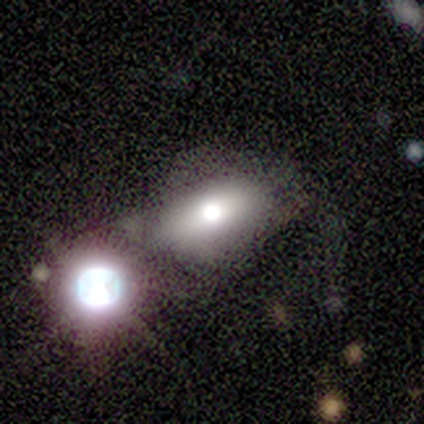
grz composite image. It shows a featured or disk galaxy (40%, tied with star or artifact) with no bar (100%), no spiral arms (100%) and a moderate central bulge (100%). Merging: none (67%).